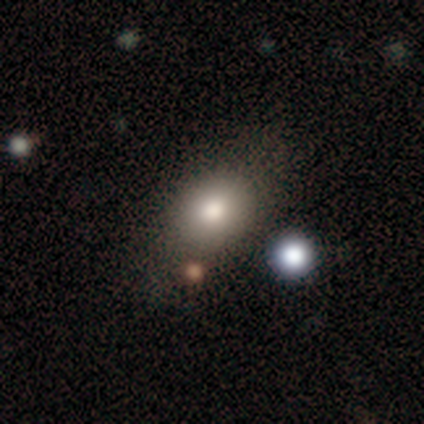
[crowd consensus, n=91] Smooth or featured? smooth (74%)
How rounded? in between (64%)
Merging? none (70%)